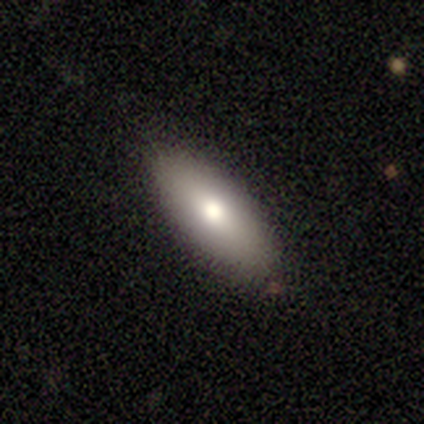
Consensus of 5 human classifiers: Smooth or featured? 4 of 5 (80%) said smooth. How rounded? 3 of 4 (75%) said in between. Merging? 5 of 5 (100%) said none.